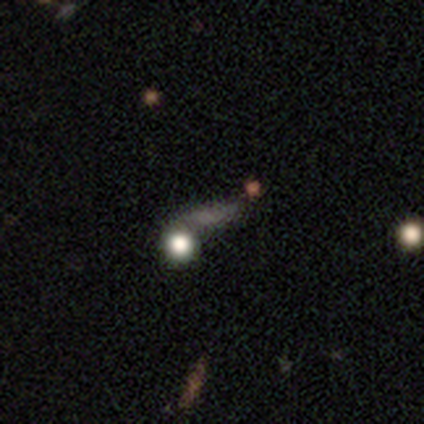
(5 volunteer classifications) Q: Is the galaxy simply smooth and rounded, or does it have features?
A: smooth — 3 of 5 (60%).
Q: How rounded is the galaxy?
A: round — 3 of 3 (100%).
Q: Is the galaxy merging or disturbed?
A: none — 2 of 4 (50%).